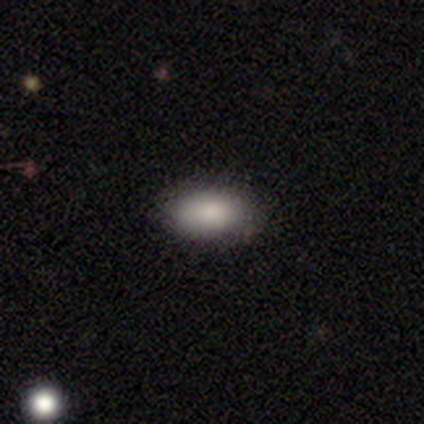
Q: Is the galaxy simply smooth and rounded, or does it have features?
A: smooth — 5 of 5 (100%).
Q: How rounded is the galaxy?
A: in between — 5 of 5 (100%).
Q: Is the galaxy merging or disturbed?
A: none — 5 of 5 (100%).